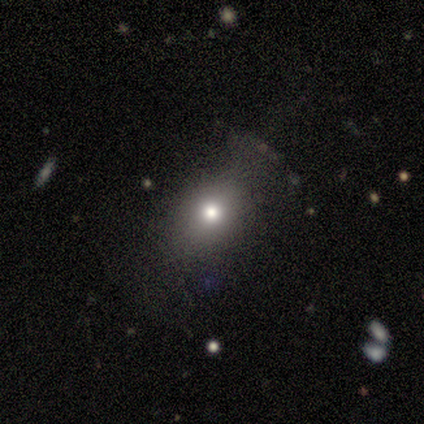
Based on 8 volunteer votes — Smooth or featured? smooth (75%)
How rounded? round (83%)
Merging? none (57%)